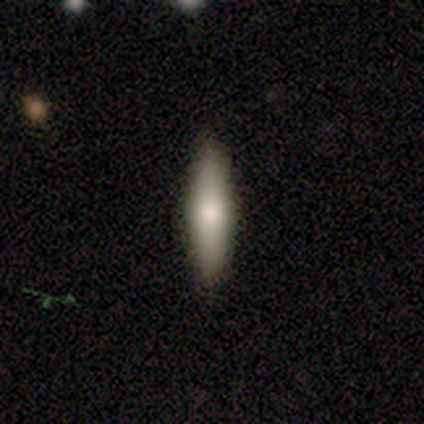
A smooth galaxy with no disk features (65%) that is cigar-shaped (81%).

Vote fractions:
- Smooth or featured? smooth: 65% / featured or disk: 28% / star or artifact: 8%
- How rounded? cigar-shaped: 81% / in between: 19% / round: 0%
- Merging? none: 89% / minor disturbance: 8% / merger: 3% / major disturbance: 0%